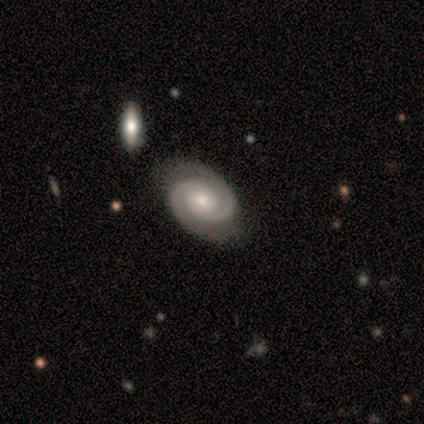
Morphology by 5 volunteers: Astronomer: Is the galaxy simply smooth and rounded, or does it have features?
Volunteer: featured or disk — 100%.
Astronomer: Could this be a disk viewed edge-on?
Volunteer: no — 80%.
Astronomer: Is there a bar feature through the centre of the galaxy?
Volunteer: no — 75%.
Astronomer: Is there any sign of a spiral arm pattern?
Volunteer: yes — 100%.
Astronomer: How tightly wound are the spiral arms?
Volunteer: tight — 75%.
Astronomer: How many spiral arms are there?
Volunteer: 2 — 100%.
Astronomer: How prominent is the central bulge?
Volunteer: moderate — 50%, tied with small at 50%.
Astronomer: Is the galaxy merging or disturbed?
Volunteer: none — 80%.